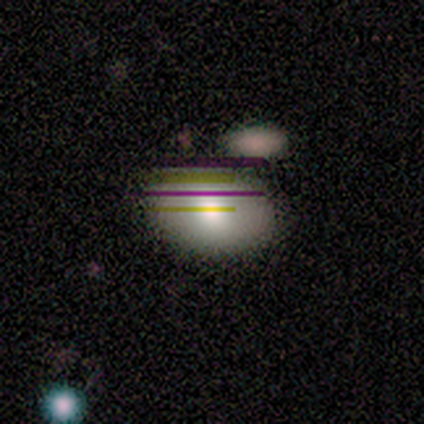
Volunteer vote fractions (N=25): A smooth galaxy with no disk features (72%) that is in between round and cigar-shaped (83%). Merging: none (50%).